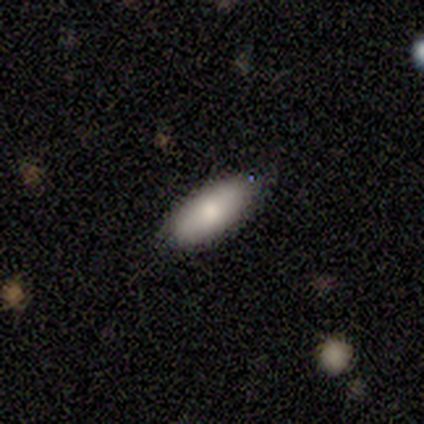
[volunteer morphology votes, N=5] Smooth or featured? 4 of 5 (80%) said smooth. How rounded? 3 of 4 (75%) said in between. Merging? 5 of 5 (100%) said none.